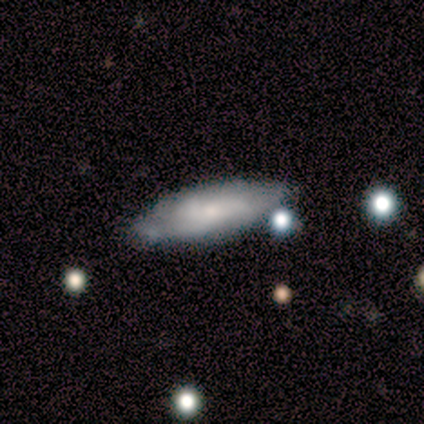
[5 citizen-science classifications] smooth_or_featured: featured or disk (p=0.60) [alt: smooth p=0.40]
disk_edge_on: no (p=0.67) [alt: yes p=0.33]
bar: no (p=1.00)
has_spiral_arms: yes (p=1.00)
spiral_winding: tight (p=0.50) [tied with: medium p=0.50]
spiral_arm_count: 1 (p=0.50) [tied with: 3 p=0.50]
bulge_size: small (p=1.00)
merging: major disturbance (p=0.40) [alt: none p=0.20]